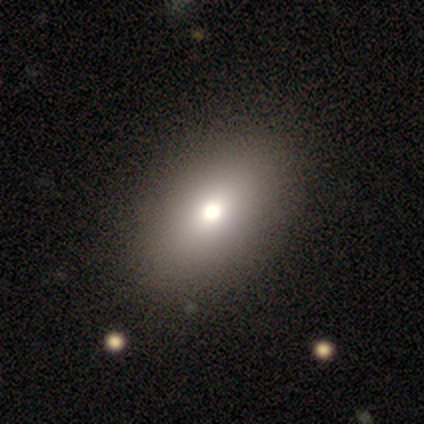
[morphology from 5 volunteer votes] smooth-or-featured: smooth: 100% | featured or disk: 0% | star or artifact: 0%
  how-rounded: in between: 80% | round: 20% | cigar-shaped: 0%
  merging: none: 100% | minor disturbance: 0% | major disturbance: 0% | merger: 0%